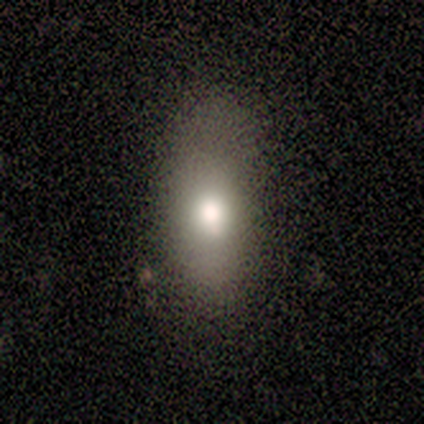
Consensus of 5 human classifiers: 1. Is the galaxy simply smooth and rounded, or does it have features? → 80% smooth, 20% featured or disk, 0% star or artifact.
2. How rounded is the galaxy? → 50% in between (tied), 50% cigar-shaped (tied), 0% round.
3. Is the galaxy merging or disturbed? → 40% none (tied), 40% minor disturbance (tied), 20% major disturbance, 0% merger.